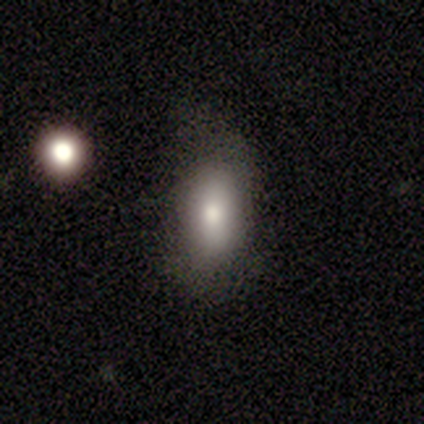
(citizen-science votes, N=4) A smooth galaxy with no disk features (100%) that is in between round and cigar-shaped (100%).

Vote fractions:
- Smooth or featured? smooth: 100% / featured or disk: 0% / star or artifact: 0%
- How rounded? in between: 100% / round: 0% / cigar-shaped: 0%
- Merging? none: 75% / minor disturbance: 25% / major disturbance: 0% / merger: 0%